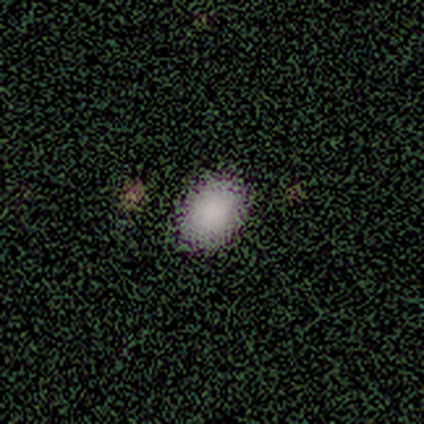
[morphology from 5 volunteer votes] A smooth galaxy with no disk features (100%) that is in between round and cigar-shaped (80%).

Vote fractions:
- Smooth or featured? smooth: 100% / featured or disk: 0% / star or artifact: 0%
- How rounded? in between: 80% / round: 20% / cigar-shaped: 0%
- Merging? none: 80% / minor disturbance: 20% / major disturbance: 0% / merger: 0%